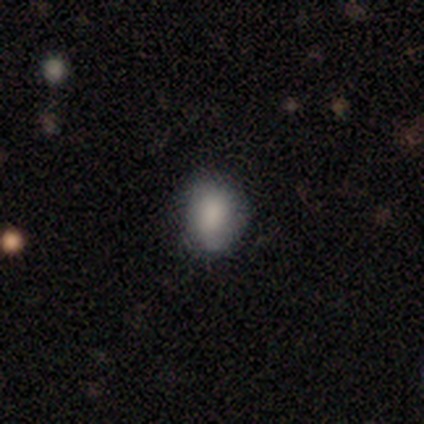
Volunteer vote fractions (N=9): Overall: smooth (100%). How rounded: in between (78%). Merging: none (67%; minor disturbance 33%).